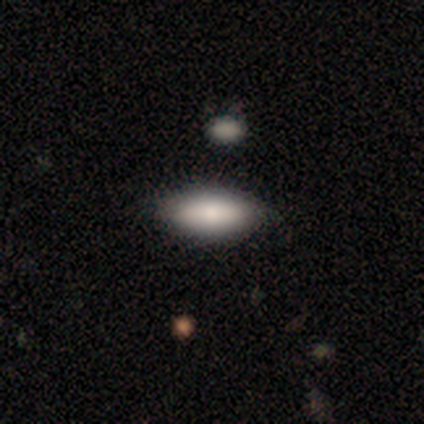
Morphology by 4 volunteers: Smooth or featured?
  - smooth: 100% *
  - featured or disk: 0%
  - star or artifact: 0%
How rounded?
  - in between: 100% *
  - round: 0%
  - cigar-shaped: 0%
Merging?
  - none: 75% *
  - minor disturbance: 25%
  - major disturbance: 0%
  - merger: 0%